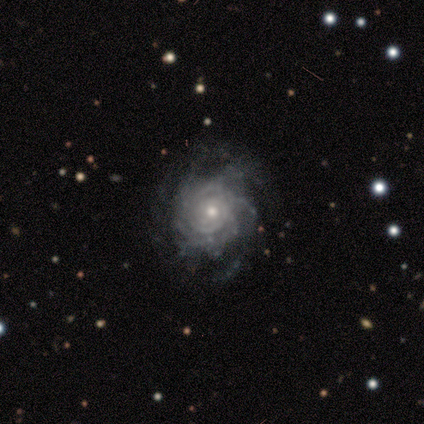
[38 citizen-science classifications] Smooth or featured?
  - featured or disk: 95% *
  - smooth: 5%
  - star or artifact: 0%
Edge-on disk?
  - no: 97% *
  - yes: 3%
Bar?
  - no: 94% *
  - weak: 6%
  - strong: 0%
Spiral arms?
  - yes: 97% *
  - no: 3%
Spiral winding?
  - tight: 68% *
  - medium: 29%
  - loose: 3%
Spiral arm count?
  - can't tell: 56% *
  - more than 4: 29%
  - 3: 9%
  - 2: 3%
  - 4: 3%
  - 1: 0%
Bulge size?
  - moderate: 51% *
  - small: 43%
  - large: 6%
  - dominant: 0%
  - none: 0%
Merging?
  - none: 55% *
  - minor disturbance: 16%
  - major disturbance: 3%
  - merger: 0%